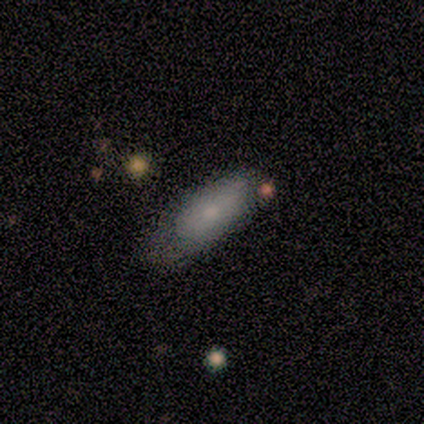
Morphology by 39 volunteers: A smooth galaxy with no disk features (62%) that is in between round and cigar-shaped (79%).

Vote fractions:
- Smooth or featured? smooth: 62% / featured or disk: 36% / star or artifact: 3%
- How rounded? in between: 79% / cigar-shaped: 21% / round: 0%
- Merging? minor disturbance: 39% / none: 34% / major disturbance: 3% / merger: 0%